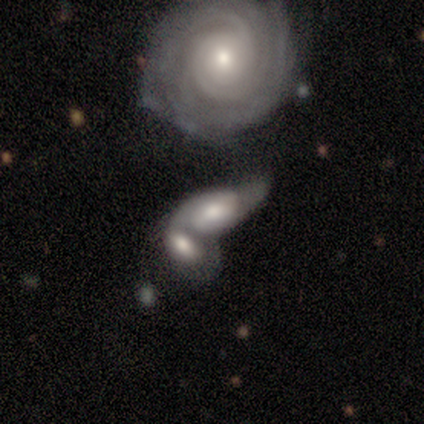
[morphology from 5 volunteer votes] smooth-or-featured: smooth: 40% (tied) | featured or disk: 40% (tied) | star or artifact: 20%
  how-rounded: round: 50% (tied) | in between: 50% (tied) | cigar-shaped: 0%
  merging: merger: 100% | none: 0% | minor disturbance: 0% | major disturbance: 0%